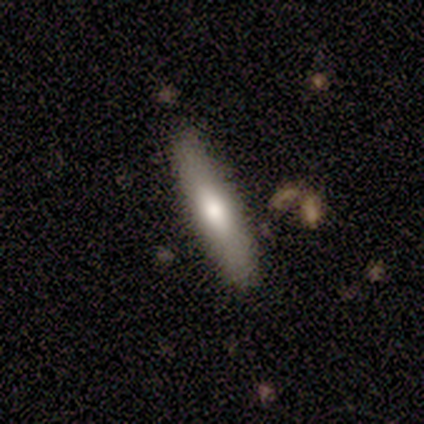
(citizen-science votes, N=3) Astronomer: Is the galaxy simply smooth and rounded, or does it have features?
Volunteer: smooth — 100%.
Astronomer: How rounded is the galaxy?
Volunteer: cigar-shaped — 100%.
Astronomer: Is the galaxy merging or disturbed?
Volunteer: none — 100%.